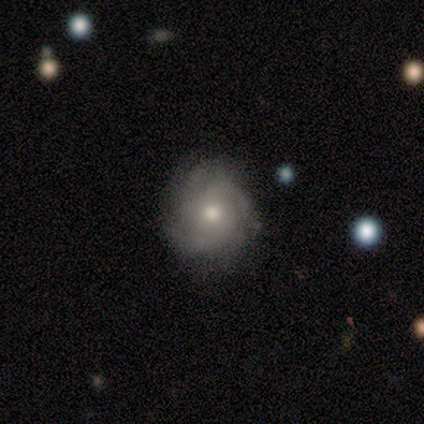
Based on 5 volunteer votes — smooth_or_featured: featured or disk (p=0.80) [alt: star or artifact p=0.20]
disk_edge_on: no (p=1.00)
bar: no (p=0.50) [alt: strong p=0.25]
has_spiral_arms: yes (p=0.50) [tied with: no p=0.50]
spiral_winding: tight (p=0.50) [tied with: medium p=0.50]
spiral_arm_count: 3 (p=1.00)
bulge_size: small (p=0.50) [alt: dominant p=0.25]
merging: none (p=0.50) [alt: minor disturbance p=0.25]